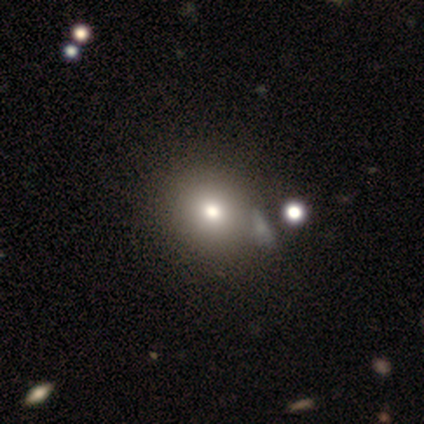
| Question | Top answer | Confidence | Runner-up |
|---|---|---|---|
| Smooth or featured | smooth | 71% | featured or disk (14%) |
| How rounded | round | 100% | — |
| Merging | none | 50% | major disturbance (33%) |